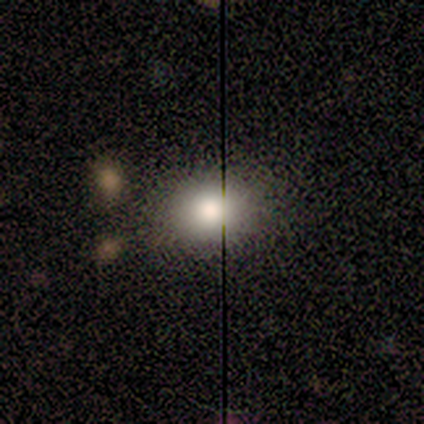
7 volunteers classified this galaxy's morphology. Smooth or featured? smooth (100%)
How rounded? in between (57%)
Merging? none (86%)